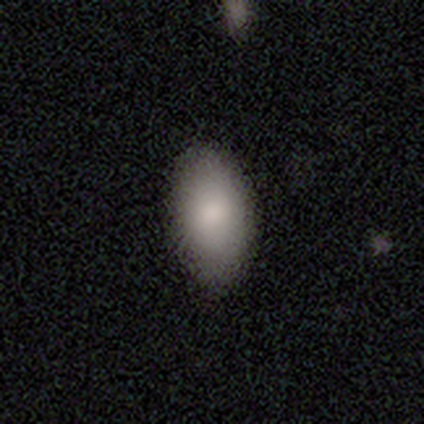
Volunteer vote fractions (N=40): Smooth or featured?
  - smooth: 98% *
  - featured or disk: 2%
  - star or artifact: 0%
How rounded?
  - in between: 95% *
  - round: 3%
  - cigar-shaped: 3%
Merging?
  - none: 82% *
  - minor disturbance: 5%
  - major disturbance: 0%
  - merger: 0%